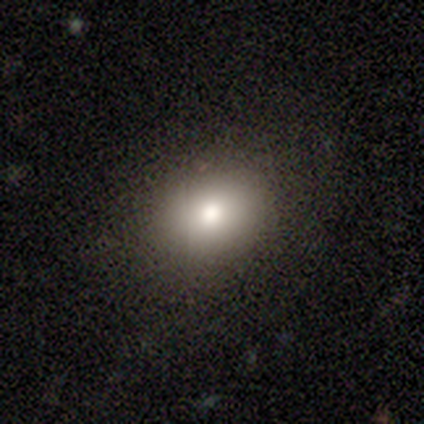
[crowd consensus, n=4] A smooth galaxy with no disk features (100%) that is in between round and cigar-shaped (75%). Merging: none (75%).